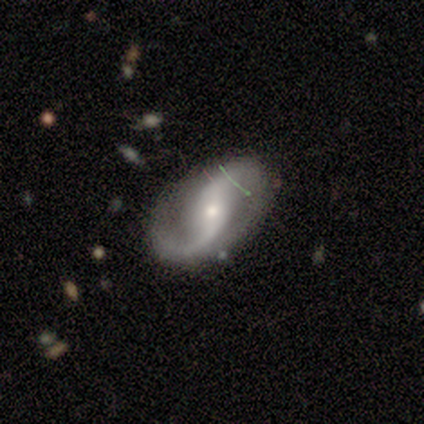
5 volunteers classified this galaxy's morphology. Q: Smooth or featured?
A: featured or disk (80%); runner-up: smooth (20%)
Q: Edge-on disk?
A: no (75%); runner-up: yes (25%)
Q: Bar?
A: strong (33%); tied with: weak (33%); no (33%)
Q: Spiral arms?
A: yes (100%)
Q: Spiral winding?
A: loose (67%); runner-up: medium (33%)
Q: Spiral arm count?
A: 2 (100%)
Q: Bulge size?
A: moderate (67%); runner-up: small (33%)
Q: Merging?
A: none (60%); runner-up: minor disturbance (40%)